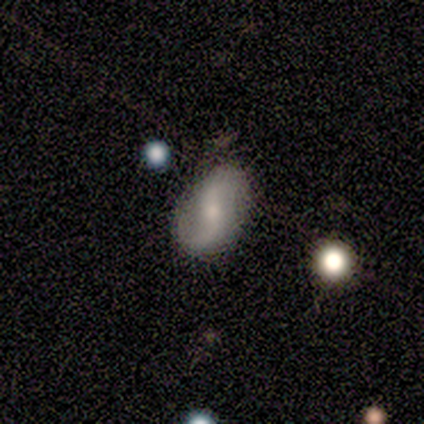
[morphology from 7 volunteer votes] Smooth or featured? 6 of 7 (86%) said featured or disk. Edge-on disk? 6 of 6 (100%) said no. Bar? 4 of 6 (67%) said weak. Spiral arms? 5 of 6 (83%) said yes. Spiral winding? 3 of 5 (60%) said loose. Spiral arm count? 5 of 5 (100%) said 2. Bulge size? 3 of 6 (50%) said small. Merging? 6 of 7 (86%) said none.